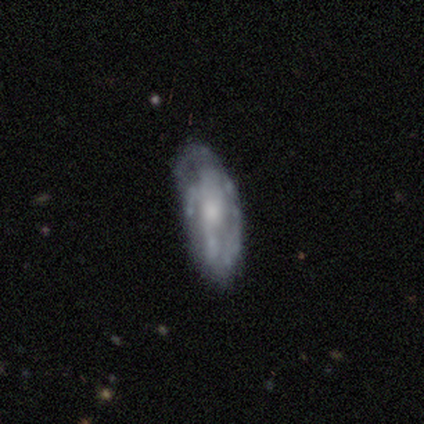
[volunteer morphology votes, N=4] A featured or disk galaxy (50%) viewed edge-on (50%, tied with no) with a rounded central bulge (100%). Merging: minor disturbance (67%).